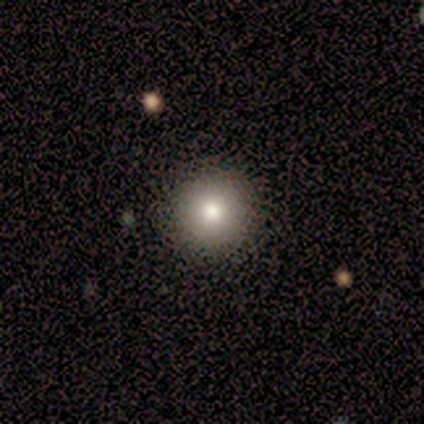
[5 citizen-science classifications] smooth-or-featured: smooth: 80% | featured or disk: 20% | star or artifact: 0%
  how-rounded: round: 75% | in between: 25% | cigar-shaped: 0%
  merging: none: 80% | minor disturbance: 20% | major disturbance: 0% | merger: 0%